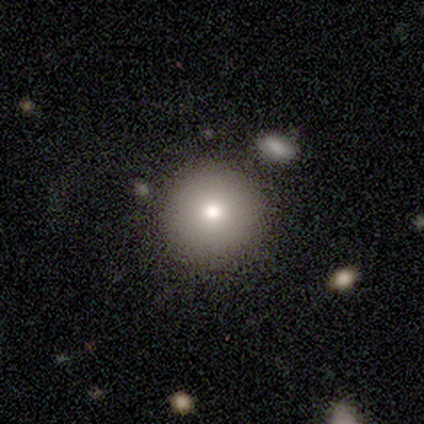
A smooth galaxy with no disk features (92%) that is round (97%).

Vote fractions:
- Smooth or featured? smooth: 92% / featured or disk: 8% / star or artifact: 0%
- How rounded? round: 97% / in between: 3% / cigar-shaped: 0%
- Merging? none: 79% / minor disturbance: 10% / major disturbance: 5% / merger: 5%